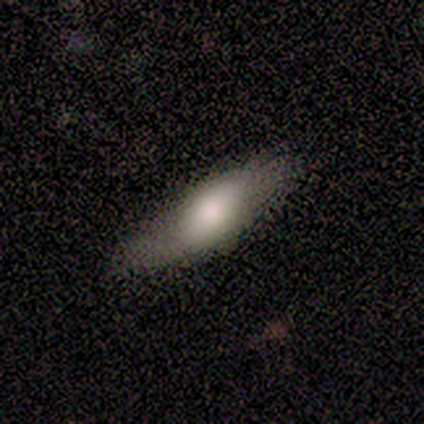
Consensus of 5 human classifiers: This appears to be a smooth galaxy with no disk features (60%) that is in between round and cigar-shaped (67%). Merging: none (100%).